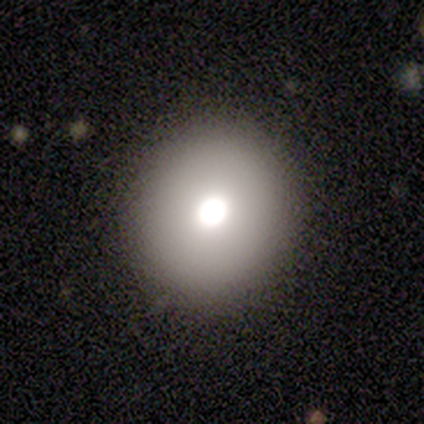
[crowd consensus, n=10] smooth_or_featured: smooth (p=1.00)
how_rounded: round (p=0.80) [alt: in between p=0.20]
merging: none (p=1.00)